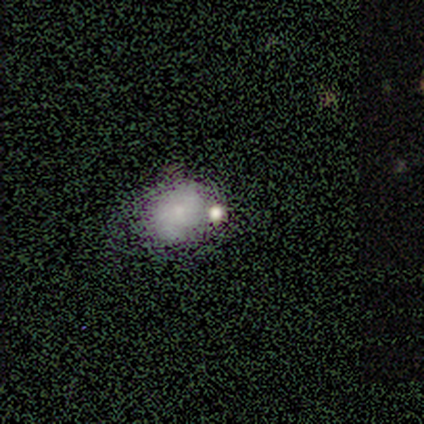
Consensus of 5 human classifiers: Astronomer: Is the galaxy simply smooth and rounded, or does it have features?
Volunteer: star or artifact — 80%.